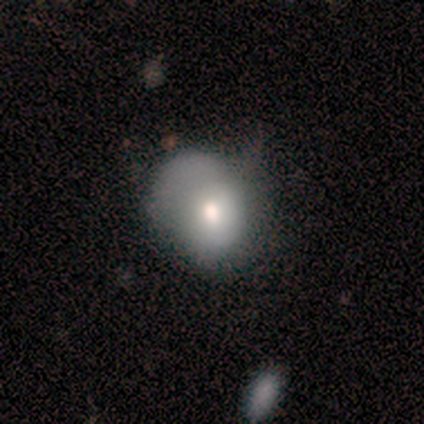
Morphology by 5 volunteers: smooth_or_featured: featured or disk (p=0.40) [tied with: star or artifact p=0.40]
disk_edge_on: no (p=1.00)
bar: no (p=1.00)
has_spiral_arms: no (p=1.00)
bulge_size: moderate (p=1.00)
merging: none (p=0.33) [tied with: minor disturbance p=0.33, major disturbance p=0.33]